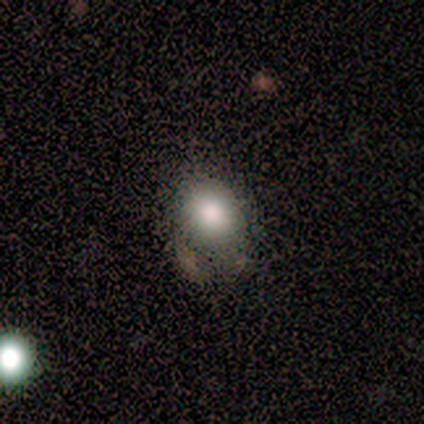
Smooth or featured? 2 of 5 (40%, tied with star or artifact) said smooth. How rounded? 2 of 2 (100%) said round. Merging? 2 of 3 (67%) said none.